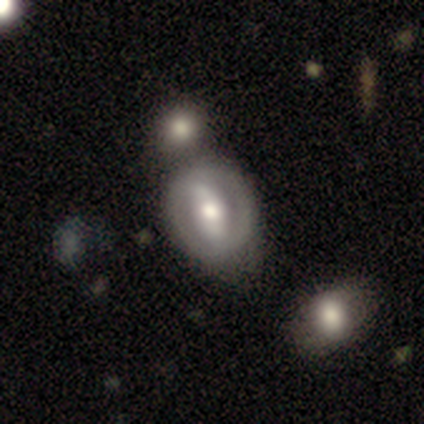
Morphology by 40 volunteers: This is likely a featured or disk galaxy (68%). It is clearly not viewed edge-on (93%). Bar: likely strong (60%). Spiral arm pattern: likely no (64%). Central bulge: clearly moderate (96%). Merging: possibly none (55%).